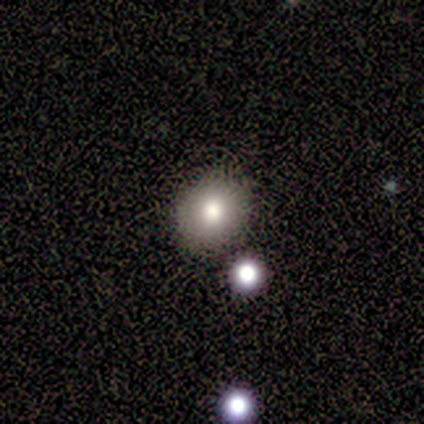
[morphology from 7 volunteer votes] Smooth or featured: smooth — 71% (featured or disk — 14%)
How rounded: round — 80% (in between — 20%)
Merging: none — 83% (merger — 17%)